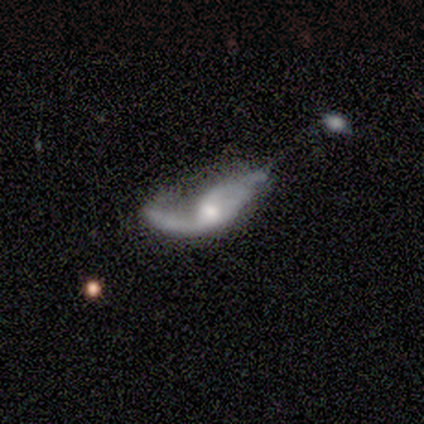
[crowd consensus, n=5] This appears to be a featured or disk galaxy (80%) with no bar (100%), 2 (100%) loose (100%) spiral arms (67%) and a moderate central bulge (67%). Merging: major disturbance (60%).